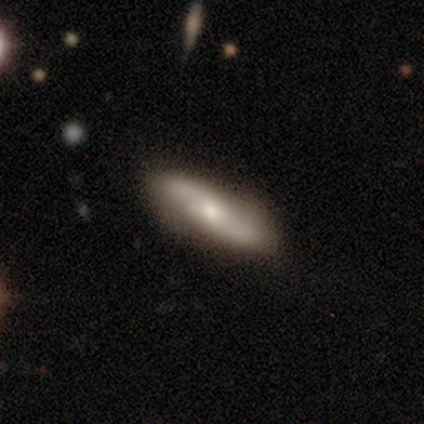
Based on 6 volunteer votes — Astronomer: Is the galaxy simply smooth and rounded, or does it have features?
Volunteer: smooth — 67%.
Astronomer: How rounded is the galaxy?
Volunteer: in between — 50%, tied with cigar-shaped at 50%.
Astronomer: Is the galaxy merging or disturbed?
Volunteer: none — 83%.